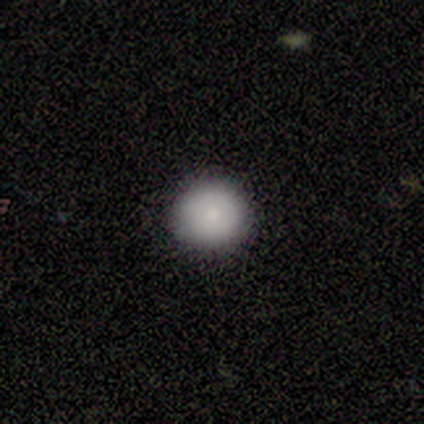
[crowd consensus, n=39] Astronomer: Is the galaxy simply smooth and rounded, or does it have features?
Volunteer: smooth — 79%.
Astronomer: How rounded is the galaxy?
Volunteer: round — 97%.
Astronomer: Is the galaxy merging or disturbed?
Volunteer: none — 92%.